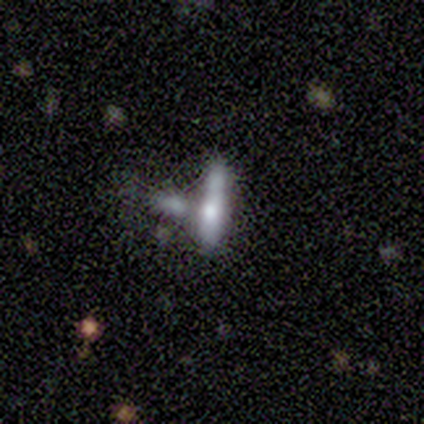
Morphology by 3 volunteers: Overall: smooth (100%). How rounded: cigar-shaped (100%). Merging: merger (67%; minor disturbance 33%).